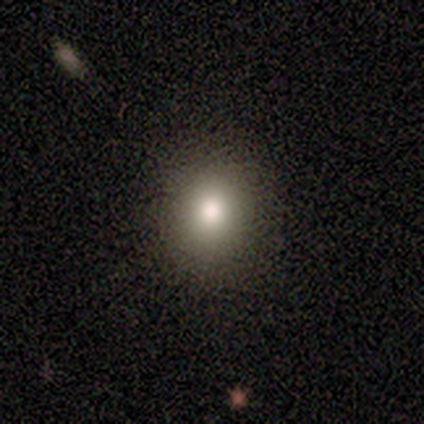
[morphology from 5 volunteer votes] Q: Smooth or featured?
A: smooth (40%); tied with: featured or disk (40%)
Q: How rounded?
A: round (50%); tied with: in between (50%)
Q: Merging?
A: none (100%)